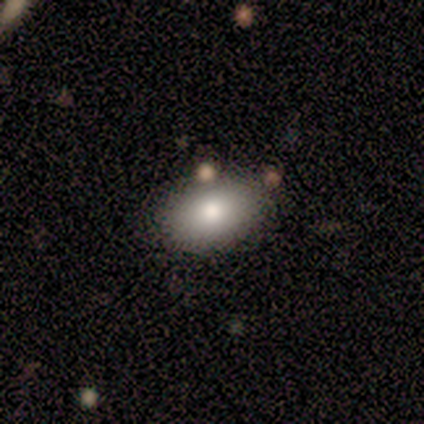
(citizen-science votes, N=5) This is likely a smooth galaxy (60%). How rounded: likely in between (67%). Merging: clearly none (100%).